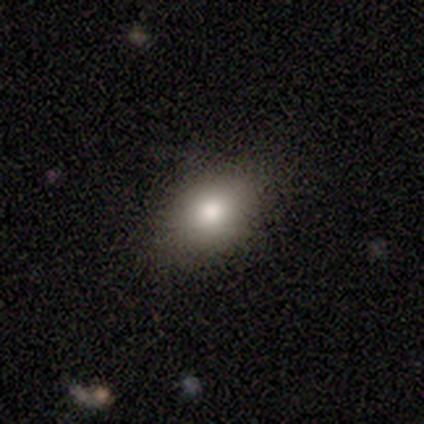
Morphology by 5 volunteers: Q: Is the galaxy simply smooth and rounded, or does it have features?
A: smooth — 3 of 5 (60%).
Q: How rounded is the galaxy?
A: in between — 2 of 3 (67%).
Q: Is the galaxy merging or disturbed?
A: none — 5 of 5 (100%).